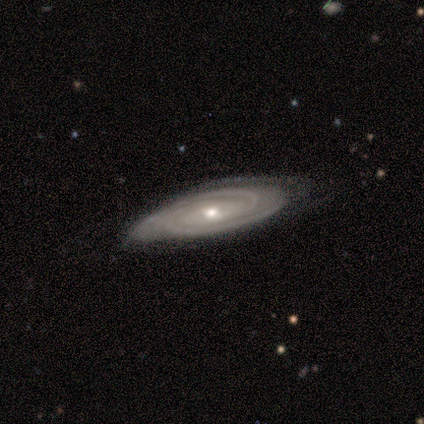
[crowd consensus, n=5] smooth_or_featured: featured or disk (p=1.00)
disk_edge_on: no (p=1.00)
bar: no (p=0.60) [alt: weak p=0.40]
has_spiral_arms: yes (p=1.00)
spiral_winding: tight (p=0.80) [alt: medium p=0.20]
spiral_arm_count: 3 (p=0.40) [alt: 2 p=0.20]
bulge_size: moderate (p=0.60) [alt: small p=0.40]
merging: none (p=0.80) [alt: major disturbance p=0.20]